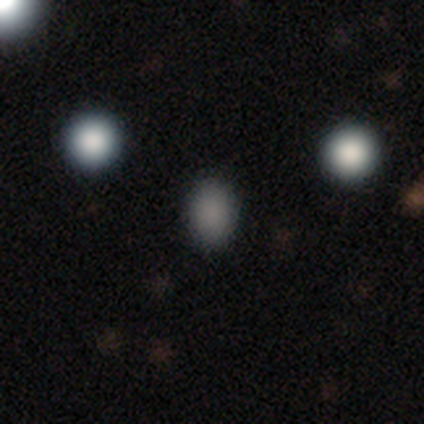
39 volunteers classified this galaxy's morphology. Smooth or featured? smooth (85%)
How rounded? in between (61%)
Merging? none (83%)